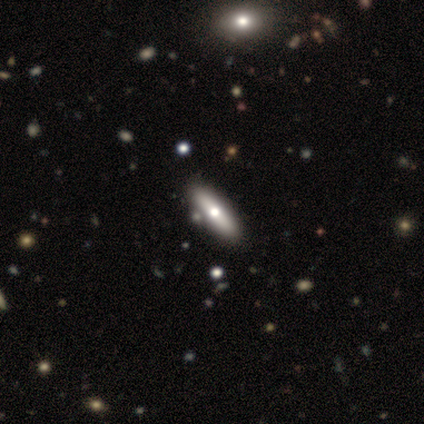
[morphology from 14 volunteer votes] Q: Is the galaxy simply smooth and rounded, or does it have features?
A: smooth — 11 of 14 (79%).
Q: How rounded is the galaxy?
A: cigar-shaped — 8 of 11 (73%).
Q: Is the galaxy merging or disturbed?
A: none — 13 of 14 (93%).